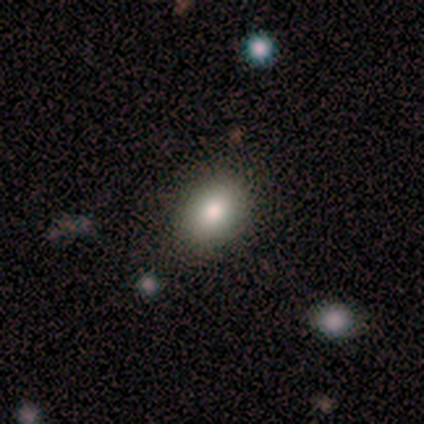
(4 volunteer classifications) Morphology: type=smooth (100%); roundness=in between (75%); merging=none (100%).